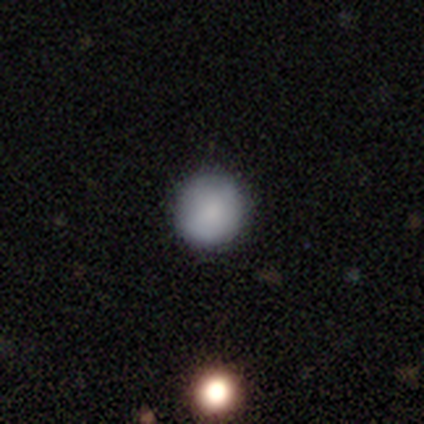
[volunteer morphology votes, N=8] Overall: smooth (100%). How rounded: round (88%). Merging: none (100%).